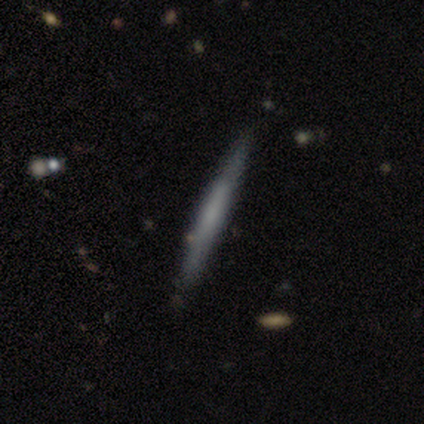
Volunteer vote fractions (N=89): Volunteers were most divided on "smooth or featured": smooth: 53%, featured or disk: 43%, star or artifact: 4%. More confident: how rounded — cigar-shaped (96%); merging — none (84%).